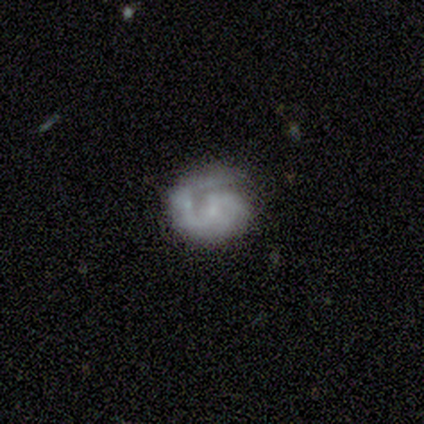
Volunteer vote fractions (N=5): smooth_or_featured: featured or disk (p=0.60) [alt: smooth p=0.20]
disk_edge_on: no (p=1.00)
bar: no (p=0.67) [alt: weak p=0.33]
has_spiral_arms: yes (p=1.00)
spiral_winding: tight (p=0.67) [alt: medium p=0.33]
spiral_arm_count: 2 (p=0.67) [alt: 1 p=0.33]
bulge_size: small (p=1.00)
merging: none (p=0.50) [alt: minor disturbance p=0.25]